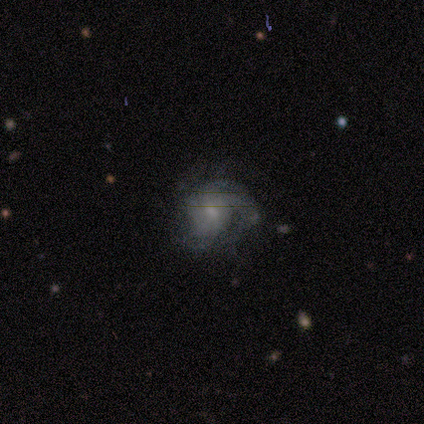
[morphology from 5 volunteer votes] Smooth or featured? 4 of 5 (80%) said featured or disk. Edge-on disk? 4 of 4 (100%) said no. Bar? 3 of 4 (75%) said no. Spiral arms? 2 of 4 (50%, tied with no) said yes. Spiral winding? 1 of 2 (50%, tied with medium) said tight. Spiral arm count? 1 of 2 (50%, tied with can't tell) said 2. Bulge size? 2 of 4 (50%) said moderate. Merging? 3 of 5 (60%) said none.